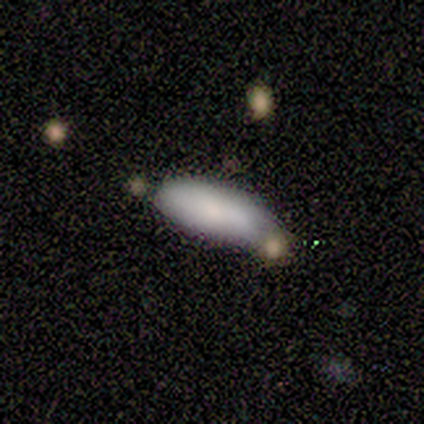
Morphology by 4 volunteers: Volunteers were most divided on "smooth or featured": smooth: 75%, star or artifact: 25%, featured or disk: 0%. More confident: how rounded — in between (100%); merging — none (100%).